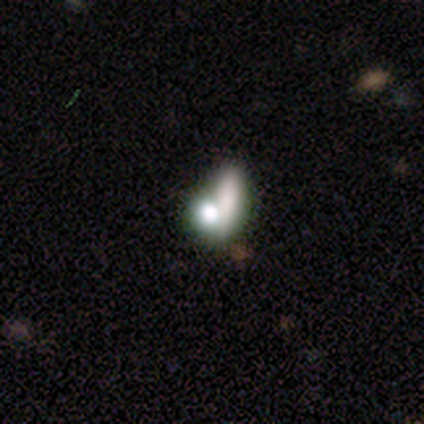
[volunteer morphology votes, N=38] Smooth or featured?
  - smooth: 63% *
  - featured or disk: 18%
  - star or artifact: 18%
How rounded?
  - in between: 58% *
  - round: 25%
  - cigar-shaped: 17%
Merging?
  - merger: 52% *
  - none: 26%
  - major disturbance: 19%
  - minor disturbance: 3%